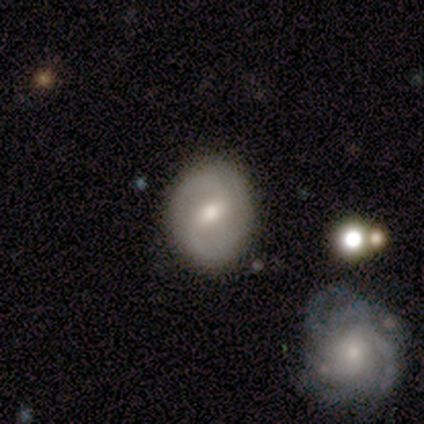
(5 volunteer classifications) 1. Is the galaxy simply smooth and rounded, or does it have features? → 80% featured or disk, 20% smooth, 0% star or artifact.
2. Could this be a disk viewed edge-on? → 100% no, 0% yes.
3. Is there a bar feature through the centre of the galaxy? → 75% strong, 25% weak, 0% no.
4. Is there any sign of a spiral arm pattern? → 50% yes (tied), 50% no (tied).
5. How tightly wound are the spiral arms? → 100% medium, 0% tight, 0% loose.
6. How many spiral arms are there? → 100% 2, 0% 1, 0% 3, 0% 4, 0% more than 4, 0% can't tell.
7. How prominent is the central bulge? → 50% moderate (tied), 50% small (tied), 0% dominant, 0% large, 0% none.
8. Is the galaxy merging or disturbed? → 80% none, 20% minor disturbance, 0% major disturbance, 0% merger.